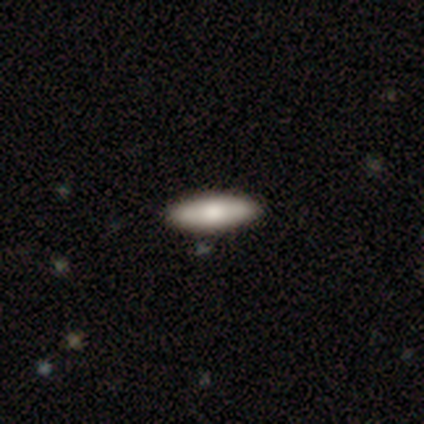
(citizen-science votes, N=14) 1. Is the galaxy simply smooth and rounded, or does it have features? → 64% smooth, 36% featured or disk, 0% star or artifact.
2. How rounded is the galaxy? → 67% in between, 33% cigar-shaped, 0% round.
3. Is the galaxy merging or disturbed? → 100% none, 0% minor disturbance, 0% major disturbance, 0% merger.